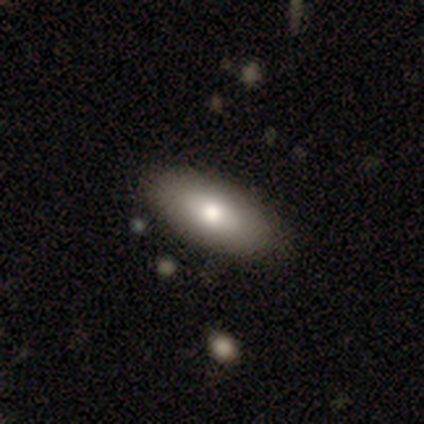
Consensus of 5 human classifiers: smooth 60%, featured or disk 40%, star or artifact 0%. Down the decision tree: how rounded — in between (100%); merging — none (80%).